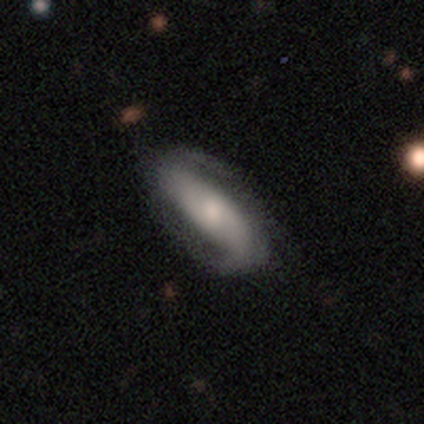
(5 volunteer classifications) Morphology: type=smooth (80%); roundness=in between (100%); merging=none (60%).